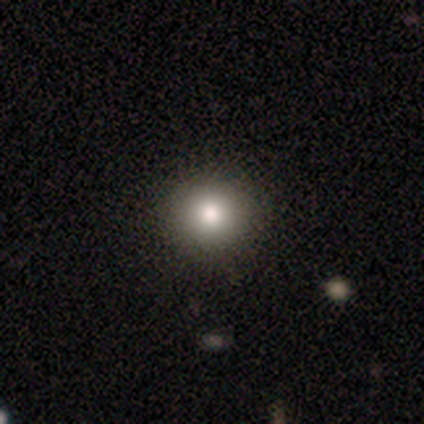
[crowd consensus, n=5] A smooth galaxy with no disk features (100%) that is round (100%).

Vote fractions:
- Smooth or featured? smooth: 100% / featured or disk: 0% / star or artifact: 0%
- How rounded? round: 100% / in between: 0% / cigar-shaped: 0%
- Merging? none: 100% / minor disturbance: 0% / major disturbance: 0% / merger: 0%